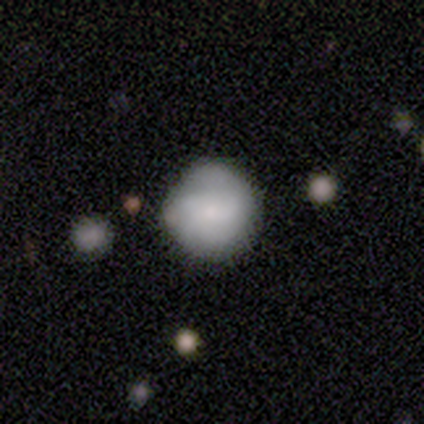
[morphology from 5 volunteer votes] A smooth galaxy with no disk features (100%) that is round (80%). Merging: minor disturbance (60%).